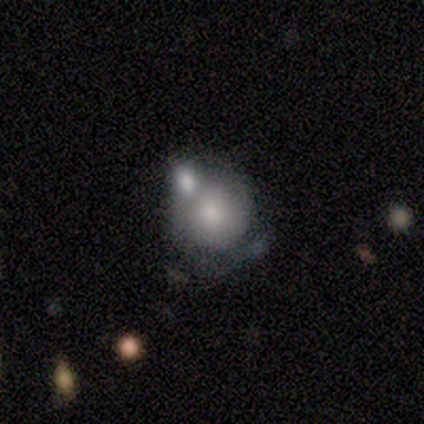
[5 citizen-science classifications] Smooth or featured: smooth — 80% (featured or disk — 20%)
How rounded: round — 75% (in between — 25%)
Merging: merger — 80% (minor disturbance — 20%)